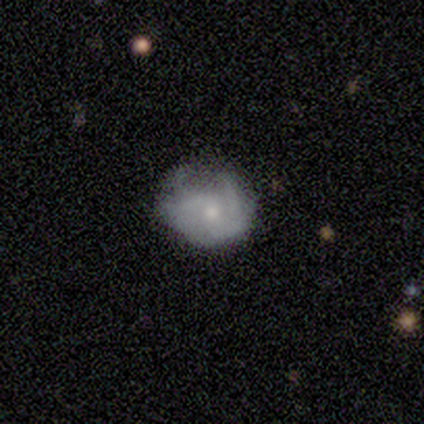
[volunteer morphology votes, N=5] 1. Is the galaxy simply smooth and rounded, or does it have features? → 60% featured or disk, 40% smooth, 0% star or artifact.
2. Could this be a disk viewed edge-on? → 100% no, 0% yes.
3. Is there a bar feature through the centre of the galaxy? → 67% no, 33% weak, 0% strong.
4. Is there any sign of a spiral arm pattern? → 100% yes, 0% no.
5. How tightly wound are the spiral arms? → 100% loose, 0% tight, 0% medium.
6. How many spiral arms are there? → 33% 2 (tied), 33% 3 (tied), 33% can't tell (tied), 0% 1, 0% 4, 0% more than 4.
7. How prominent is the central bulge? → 67% moderate, 33% small, 0% dominant, 0% large, 0% none.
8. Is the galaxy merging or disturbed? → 60% minor disturbance, 40% major disturbance, 0% none, 0% merger.